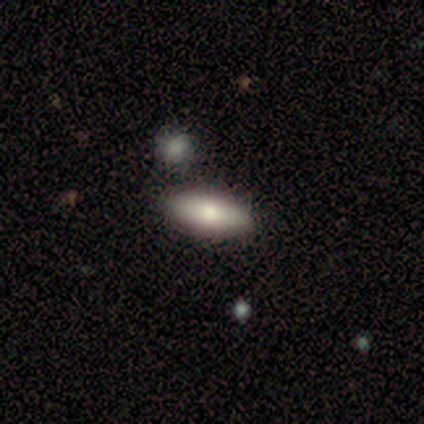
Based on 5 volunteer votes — Overall: smooth (60%; featured or disk 40%). How rounded: in between (100%). Merging: none (100%).